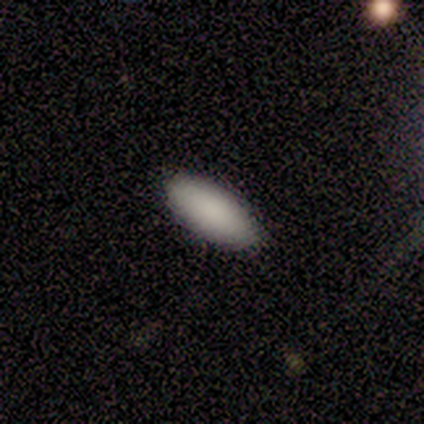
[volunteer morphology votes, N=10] This is clearly a smooth galaxy (90%). How rounded: likely in between (67%). Merging: likely none (78%).